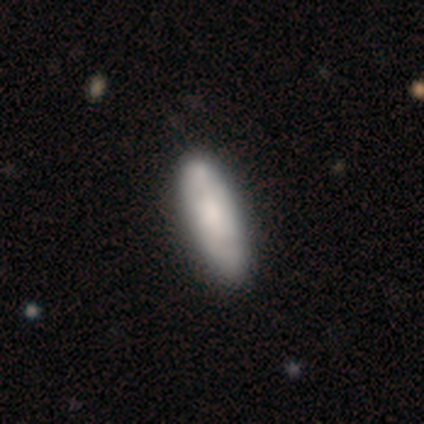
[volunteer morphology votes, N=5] Volunteers were most divided on "how rounded" (2-way tie): in between: 50%, cigar-shaped: 50%, round: 0%. More confident: merging — none (100%); smooth or featured — smooth (80%).